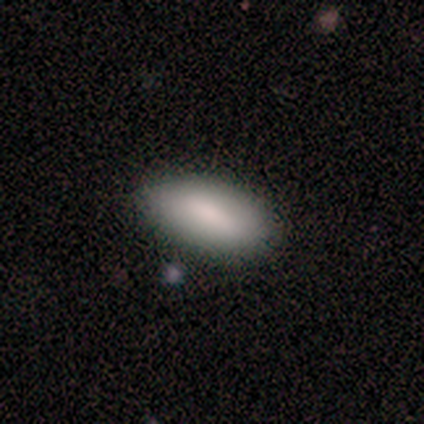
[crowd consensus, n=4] This is clearly a smooth galaxy (100%). How rounded: clearly in between (100%). Merging: likely none (75%).